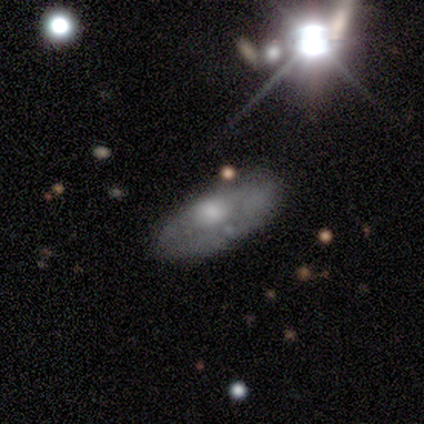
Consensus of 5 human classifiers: Volunteers were most divided on "smooth or featured" (2-way tie): smooth: 40%, featured or disk: 40%, star or artifact: 20%. More confident: how rounded — in between (100%); merging — major disturbance (50%).